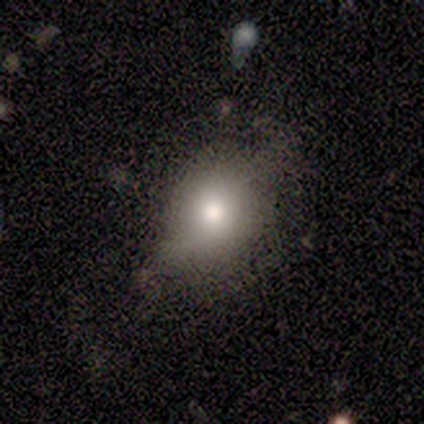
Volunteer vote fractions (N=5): This appears to be a smooth galaxy with no disk features (80%) that is round (50%, tied with in between). Merging: none (60%).